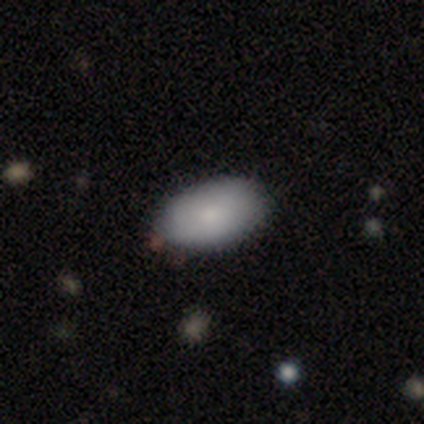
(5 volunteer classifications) A smooth galaxy with no disk features (40%, tied with featured or disk) that is in between round and cigar-shaped (100%). Merging: none (50%, tied with minor disturbance).